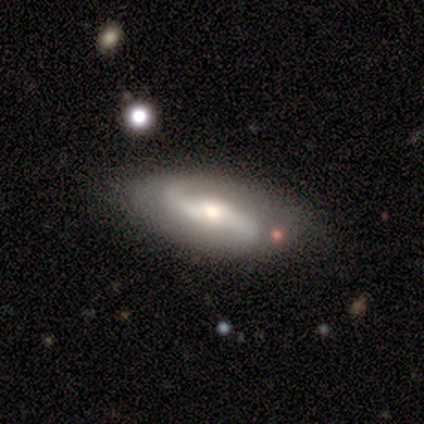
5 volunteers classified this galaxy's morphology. Smooth or featured? featured or disk (60%)
Edge-on disk? no (67%)
Bar? strong (50%, tied with weak)
Spiral arms? yes (100%)
Spiral winding? medium (50%, tied with loose)
Spiral arm count? 2 (100%)
Bulge size? large (50%, tied with small)
Merging? none (50%, tied with minor disturbance)